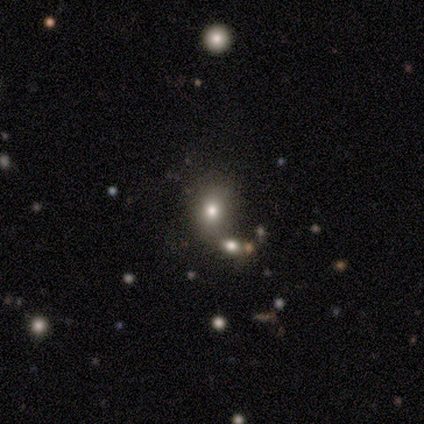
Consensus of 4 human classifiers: A smooth galaxy with no disk features (50%, tied with star or artifact) that is in between round and cigar-shaped (50%, tied with cigar-shaped).

Vote fractions:
- Smooth or featured? smooth: 50% (tied) / star or artifact: 50% (tied) / featured or disk: 0%
- How rounded? in between: 50% (tied) / cigar-shaped: 50% (tied) / round: 0%
- Merging? none: 50% (tied) / merger: 50% (tied) / minor disturbance: 0% / major disturbance: 0%